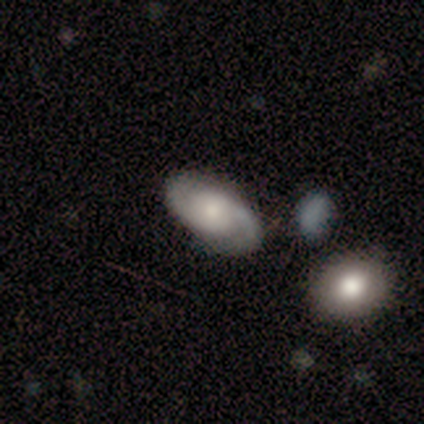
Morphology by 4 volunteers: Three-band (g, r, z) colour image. It shows a featured or disk galaxy (75%) with no bar (100%), 2 (100%) tight (50%, tied with medium) spiral arms (100%) and a moderate central bulge (50%, tied with small). Merging: none (75%).